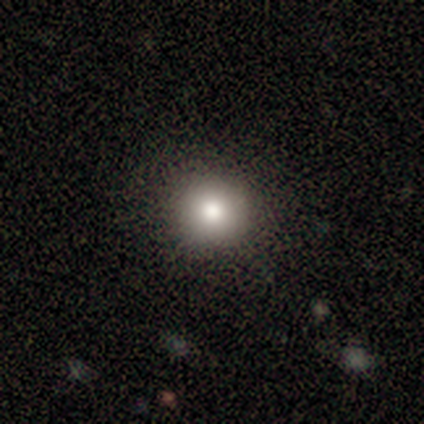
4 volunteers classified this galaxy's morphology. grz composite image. It shows a smooth galaxy with no disk features (100%) that is round (100%). Merging: none (100%).